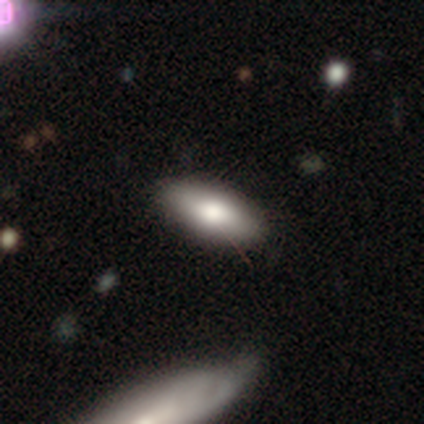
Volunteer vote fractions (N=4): This appears to be a smooth galaxy with no disk features (50%, tied with featured or disk) that is in between round and cigar-shaped (50%, tied with cigar-shaped). Merging: none (75%).